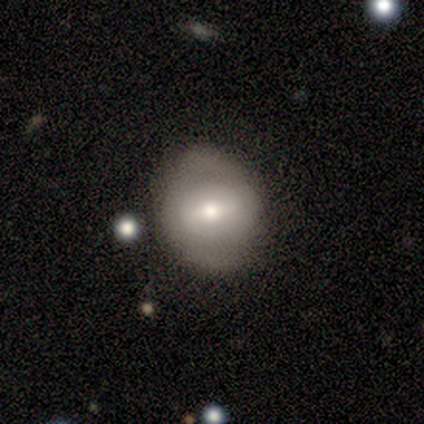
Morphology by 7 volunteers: A smooth galaxy with no disk features (57%) that is round (100%).

Vote fractions:
- Smooth or featured? smooth: 57% / featured or disk: 29% / star or artifact: 14%
- How rounded? round: 100% / in between: 0% / cigar-shaped: 0%
- Merging? none: 83% / minor disturbance: 17% / major disturbance: 0% / merger: 0%